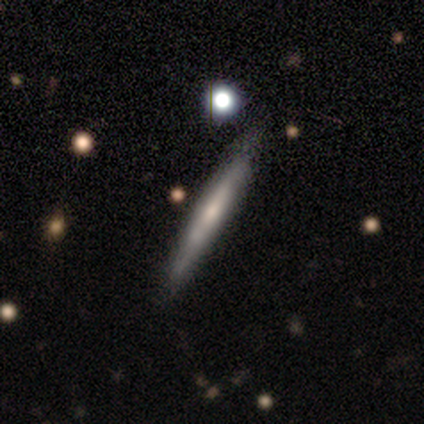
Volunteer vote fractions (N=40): Smooth or featured: featured or disk — 62% (smooth — 35%)
Edge-on disk: yes — 100%
Edge-on bulge: none — 56% (rounded — 28%)
Merging: none — 67% (minor disturbance — 10%)